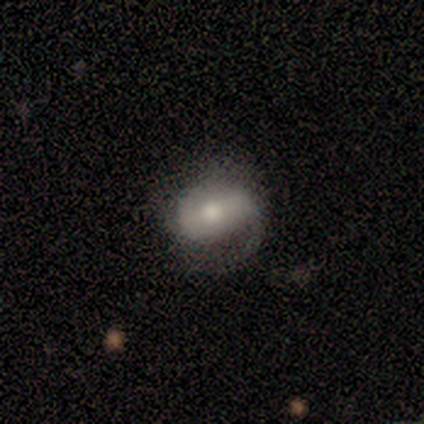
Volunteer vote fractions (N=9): Smooth or featured? 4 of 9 (44%, tied with featured or disk) said smooth. How rounded? 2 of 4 (50%, tied with in between) said round. Merging? 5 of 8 (62%) said none.